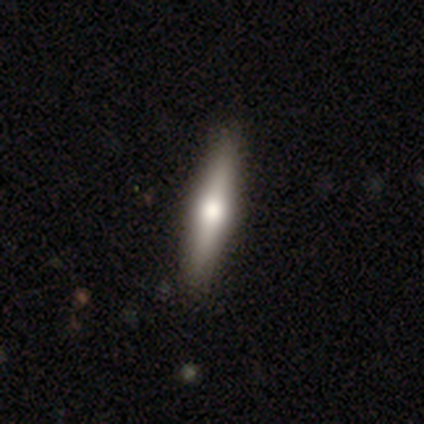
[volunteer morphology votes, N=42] This is likely a featured or disk galaxy (62%). It is clearly viewed edge-on (100%). Edge-on bulge: clearly rounded (96%). Merging: likely none (75%).